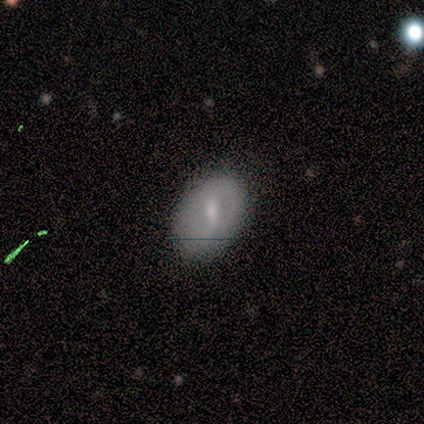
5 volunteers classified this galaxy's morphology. Smooth or featured: featured or disk — 60% (smooth — 20%)
Edge-on disk: no — 67% (yes — 33%)
Bar: strong — 50% (tied with weak — 50%)
Spiral arms: yes — 50% (tied with no — 50%)
Spiral winding: medium — 100%
Spiral arm count: 2 — 100%
Bulge size: small — 100%
Merging: none — 50% (tied with minor disturbance — 50%)